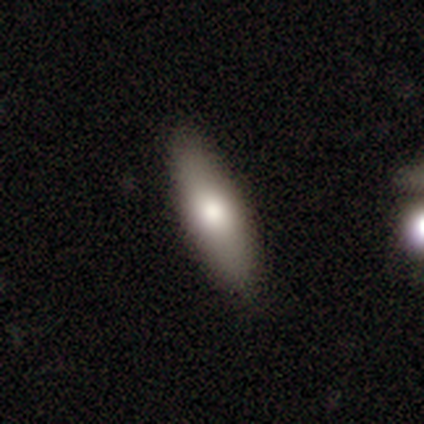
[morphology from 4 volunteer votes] smooth 100%, featured or disk 0%, star or artifact 0%. Down the decision tree: how rounded — in between (75%); merging — none (75%).